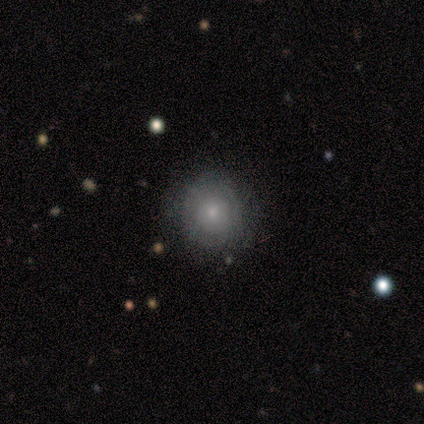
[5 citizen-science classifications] This is likely a smooth galaxy (60%). How rounded: likely round (67%). Merging: clearly none (100%).